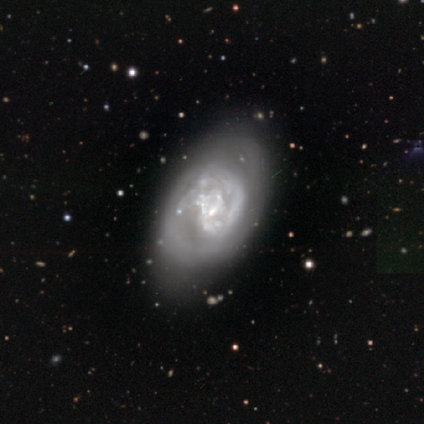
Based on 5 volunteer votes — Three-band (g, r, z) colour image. It shows a featured or disk galaxy (100%) with a weak bar (60%), no spiral arms (60%) and a small central bulge (60%). Merging: none (40%, tied with minor disturbance).